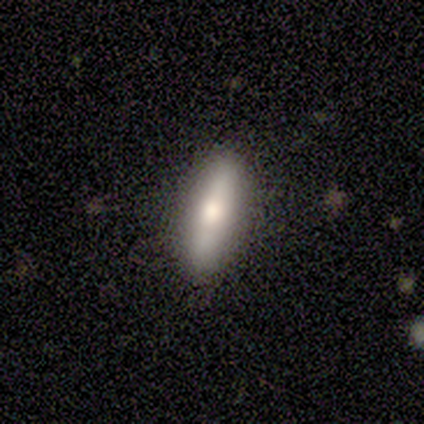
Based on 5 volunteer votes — Overall: smooth (60%; featured or disk 40%). How rounded: cigar-shaped (100%). Merging: none (100%).